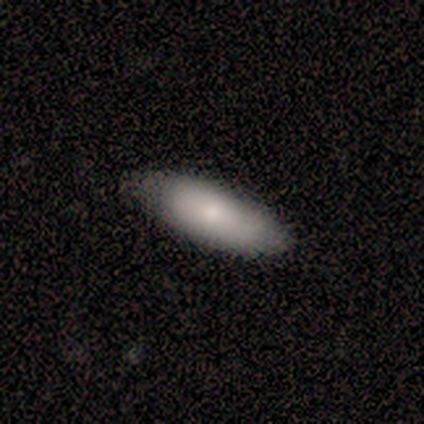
Smooth or featured? 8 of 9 (89%) said smooth. How rounded? 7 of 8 (88%) said in between. Merging? 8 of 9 (89%) said none.